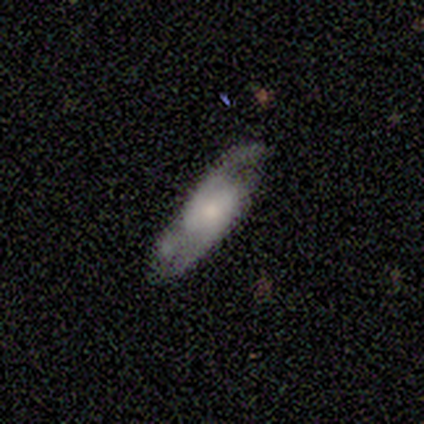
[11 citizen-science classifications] Overall: featured or disk (55%; smooth 45%). Edge-on disk: no (83%). Bar: weak (60%; no 40%). Spiral arms: yes (100%). Spiral arm count: 2 (60%; can't tell 40%). Spiral winding: medium (60%; tight 20%). Bulge size: moderate (40%, tied with small). Merging: none (64%).